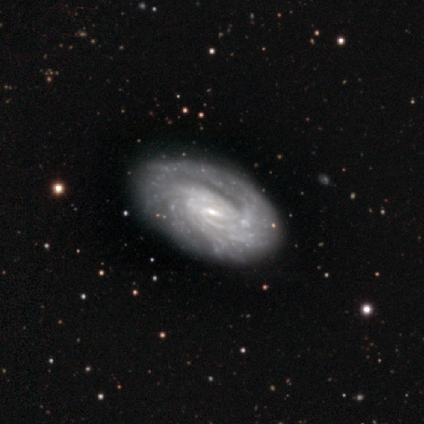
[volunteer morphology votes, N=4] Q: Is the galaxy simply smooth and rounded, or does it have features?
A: featured or disk — 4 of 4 (100%).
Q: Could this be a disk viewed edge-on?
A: no — 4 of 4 (100%).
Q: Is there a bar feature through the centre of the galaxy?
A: weak — 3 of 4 (75%).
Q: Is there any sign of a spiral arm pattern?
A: yes — 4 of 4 (100%).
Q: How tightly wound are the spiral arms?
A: tight — 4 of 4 (100%).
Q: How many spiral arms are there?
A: more than 4 — 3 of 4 (75%).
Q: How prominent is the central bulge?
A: small — 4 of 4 (100%).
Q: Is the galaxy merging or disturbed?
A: none — 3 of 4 (75%).